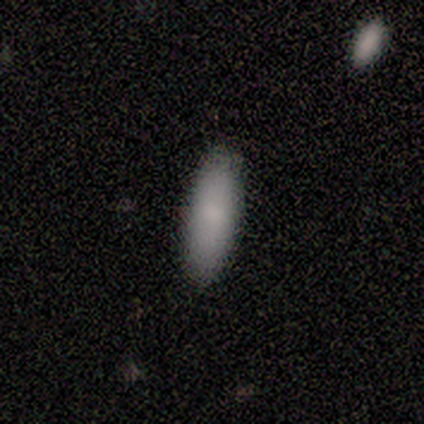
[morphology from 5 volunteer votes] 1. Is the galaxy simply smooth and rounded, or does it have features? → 100% smooth, 0% featured or disk, 0% star or artifact.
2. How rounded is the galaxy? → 60% in between, 40% cigar-shaped, 0% round.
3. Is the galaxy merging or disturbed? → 100% none, 0% minor disturbance, 0% major disturbance, 0% merger.